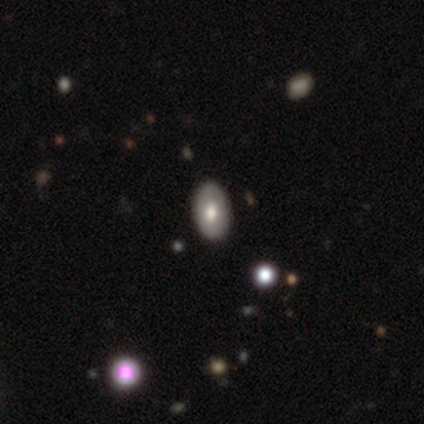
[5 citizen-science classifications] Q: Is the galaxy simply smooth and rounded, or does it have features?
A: smooth — 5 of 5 (100%).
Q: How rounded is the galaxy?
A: in between — 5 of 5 (100%).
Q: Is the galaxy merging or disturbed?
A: none — 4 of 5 (80%).